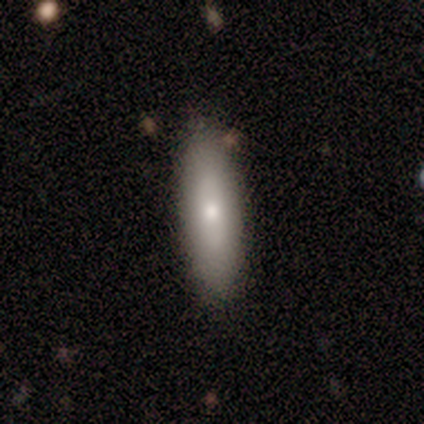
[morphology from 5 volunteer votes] smooth_or_featured: smooth (p=1.00)
how_rounded: in between (p=0.60) [alt: cigar-shaped p=0.40]
merging: none (p=1.00)